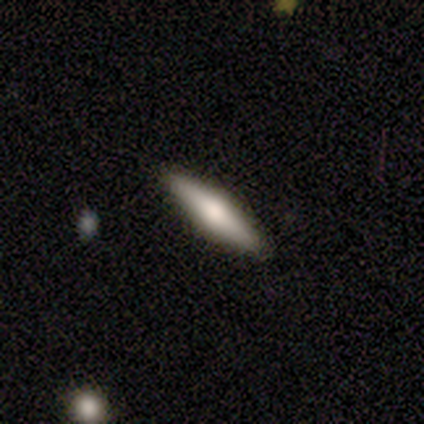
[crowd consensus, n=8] Smooth or featured: smooth — 50% (tied with featured or disk — 50%)
How rounded: cigar-shaped — 75% (in between — 25%)
Merging: none — 100%